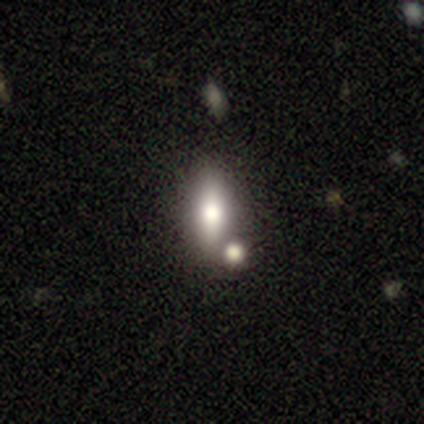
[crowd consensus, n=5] Smooth or featured? 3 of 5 (60%) said smooth. How rounded? 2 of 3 (67%) said cigar-shaped. Merging? 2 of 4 (50%, tied with merger) said none.